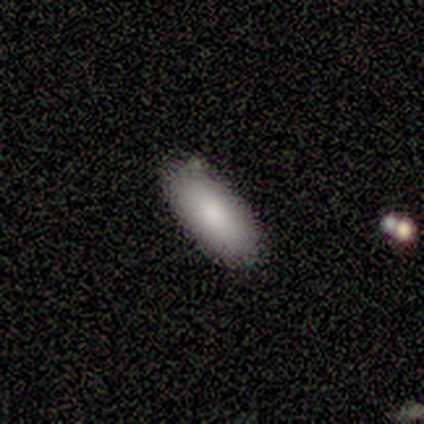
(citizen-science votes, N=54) A smooth galaxy with no disk features (85%) that is in between round and cigar-shaped (100%).

Vote fractions:
- Smooth or featured? smooth: 85% / featured or disk: 9% / star or artifact: 6%
- How rounded? in between: 100% / round: 0% / cigar-shaped: 0%
- Merging? none: 80% / minor disturbance: 16% / merger: 4% / major disturbance: 0%